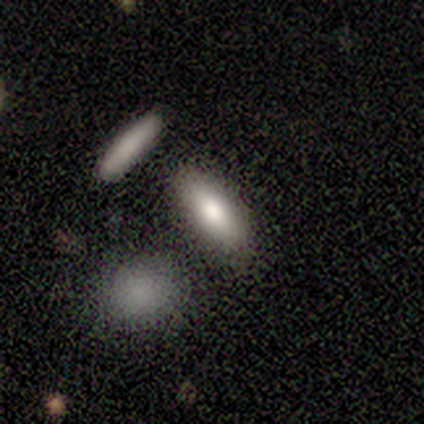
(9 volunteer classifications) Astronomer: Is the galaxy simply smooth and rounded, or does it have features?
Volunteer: smooth — 67%.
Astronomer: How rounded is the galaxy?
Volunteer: in between — 100%.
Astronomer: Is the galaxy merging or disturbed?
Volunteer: none — 71%.